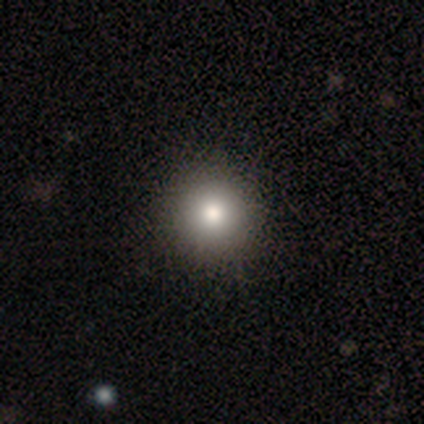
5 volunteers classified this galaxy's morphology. Smooth or featured? 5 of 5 (100%) said smooth. How rounded? 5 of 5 (100%) said round. Merging? 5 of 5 (100%) said none.